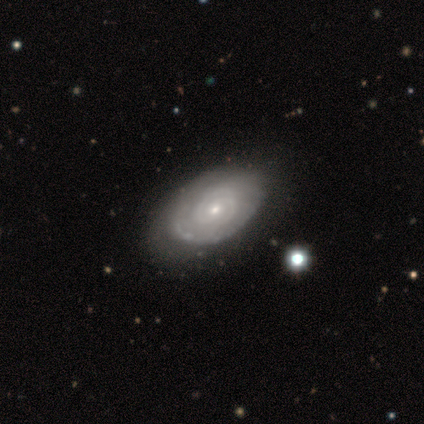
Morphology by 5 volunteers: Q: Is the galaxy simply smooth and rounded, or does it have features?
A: featured or disk — 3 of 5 (60%).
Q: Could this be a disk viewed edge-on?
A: no — 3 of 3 (100%).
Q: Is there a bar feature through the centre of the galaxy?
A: no — 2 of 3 (67%).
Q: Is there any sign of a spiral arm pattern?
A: yes — 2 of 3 (67%).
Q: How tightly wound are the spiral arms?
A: tight — 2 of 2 (100%).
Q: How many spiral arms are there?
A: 2 — 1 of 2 (50%, tied with can't tell).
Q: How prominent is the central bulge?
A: small — 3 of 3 (100%).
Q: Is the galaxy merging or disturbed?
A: none — 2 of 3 (67%).